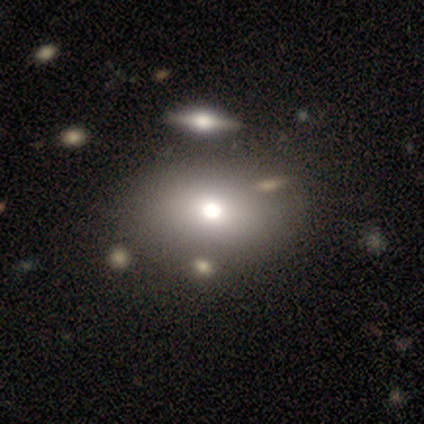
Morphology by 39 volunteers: smooth_or_featured: smooth (p=0.77) [alt: featured or disk p=0.18]
how_rounded: in between (p=0.73) [alt: round p=0.27]
merging: none (p=0.57) [alt: merger p=0.14]